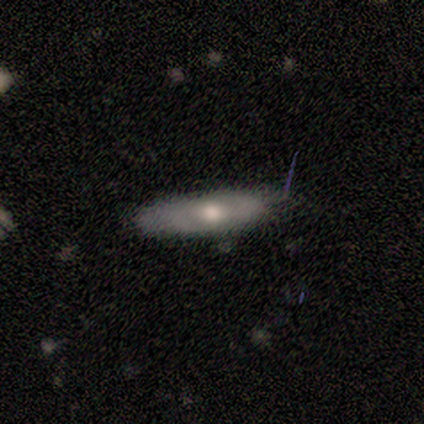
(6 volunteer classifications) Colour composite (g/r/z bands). It shows a smooth galaxy with no disk features (50%, tied with featured or disk) that is round (33%, tied with in between and cigar-shaped). Merging: none (50%, tied with minor disturbance).